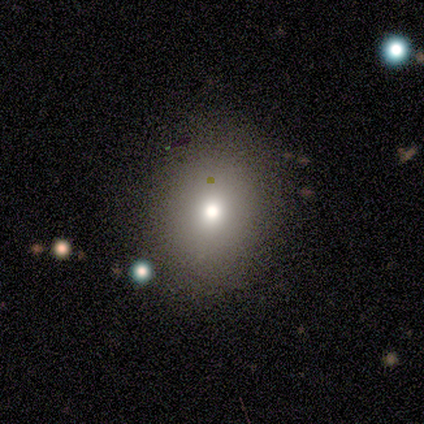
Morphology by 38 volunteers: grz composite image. It shows a smooth galaxy with no disk features (55%) that is round (86%). Merging: none (47%).